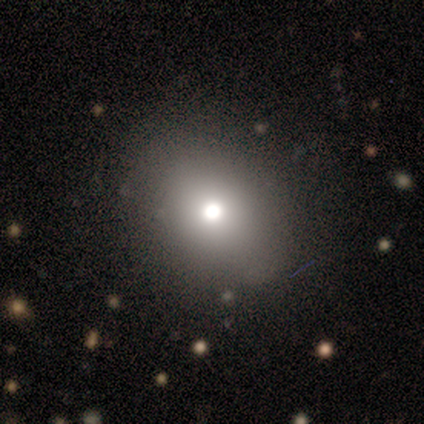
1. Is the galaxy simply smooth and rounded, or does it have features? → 67% smooth, 33% featured or disk, 0% star or artifact.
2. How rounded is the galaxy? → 50% round (tied), 50% in between (tied), 0% cigar-shaped.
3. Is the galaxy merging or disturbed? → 83% none, 17% minor disturbance, 0% major disturbance, 0% merger.